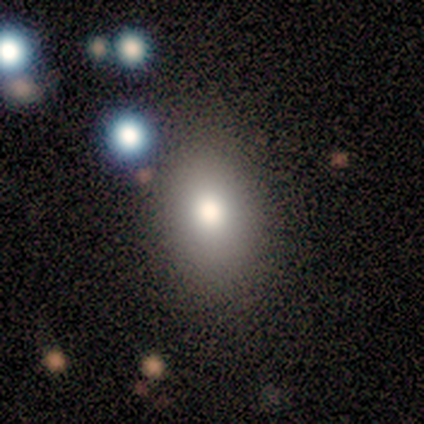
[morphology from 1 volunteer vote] Smooth or featured: smooth — 100%
How rounded: in between — 100%
Merging: none — 100%